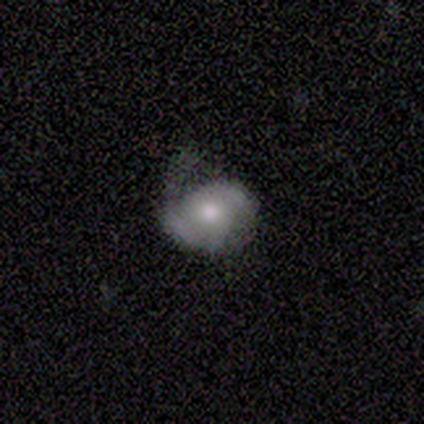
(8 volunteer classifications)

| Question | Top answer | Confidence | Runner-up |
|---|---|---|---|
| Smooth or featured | smooth | 62% | featured or disk (38%) |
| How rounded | in between | 80% | round (20%) |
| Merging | none | 38% | tied: major disturbance (38%) |